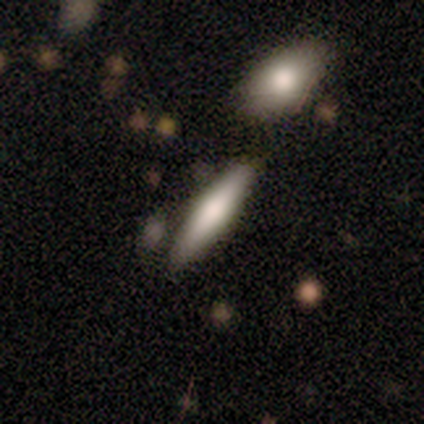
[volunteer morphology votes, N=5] Smooth or featured: smooth — 100%
How rounded: cigar-shaped — 100%
Merging: none — 60% (minor disturbance — 40%)